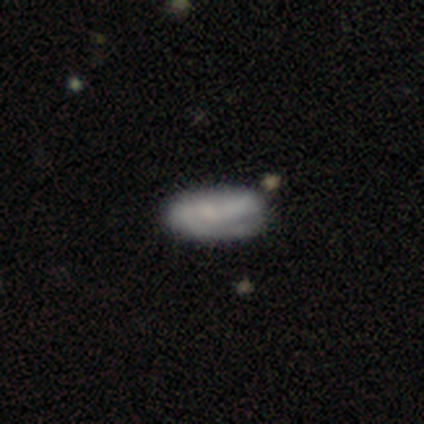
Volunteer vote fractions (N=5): This is likely a featured or disk galaxy (60%). It is clearly not viewed edge-on (100%). Bar: likely weak (67%). Spiral arm pattern: clearly yes (100%). Spiral arm count: likely 2 (67%). Spiral winding: clearly tight (100%). Central bulge: likely moderate (67%). Merging: likely none (60%).